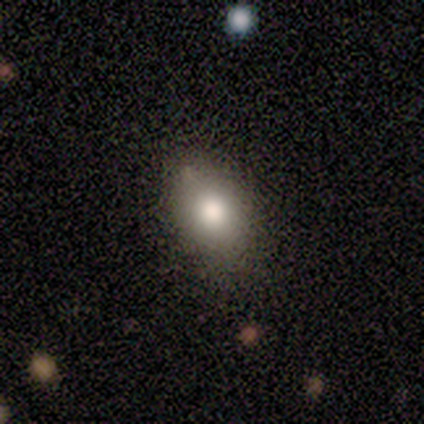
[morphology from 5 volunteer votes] Smooth or featured? smooth (80%)
How rounded? in between (100%)
Merging? none (80%)